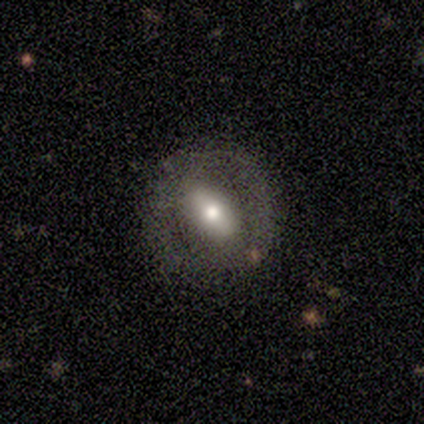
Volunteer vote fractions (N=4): Volunteers were most divided on "how rounded": in between: 67%, round: 33%, cigar-shaped: 0%. More confident: smooth or featured — smooth (75%); merging — none (75%).